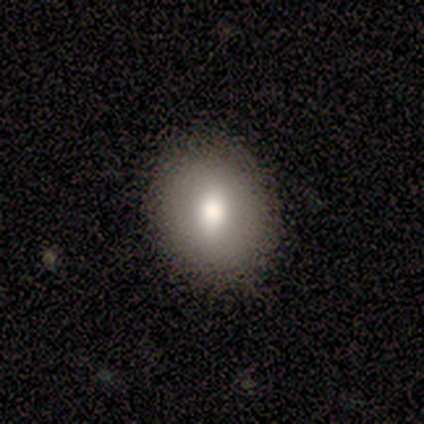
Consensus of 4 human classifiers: This is likely a smooth galaxy (75%). How rounded: clearly in between (100%). Merging: clearly none (100%).